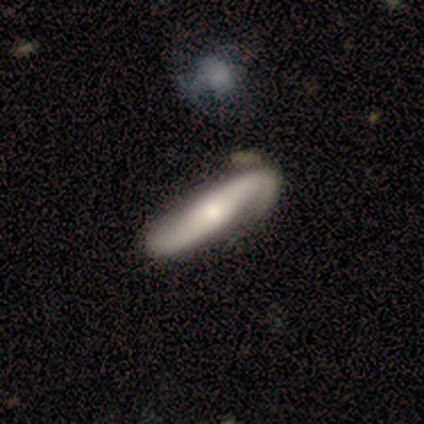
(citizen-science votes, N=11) Smooth or featured: featured or disk — 100%
Edge-on disk: no — 64% (yes — 36%)
Bar: no — 57% (strong — 29%)
Spiral arms: yes — 86% (no — 14%)
Spiral winding: medium — 83% (loose — 17%)
Spiral arm count: 2 — 67% (1 — 17%)
Bulge size: moderate — 43% (small — 29%)
Merging: none — 64% (merger — 27%)